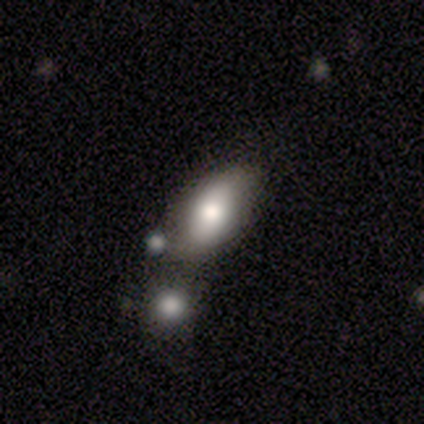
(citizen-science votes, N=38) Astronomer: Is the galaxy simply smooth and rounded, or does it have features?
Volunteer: smooth — 58% (runner-up: featured or disk, 42%).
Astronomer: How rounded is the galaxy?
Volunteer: in between — 91%.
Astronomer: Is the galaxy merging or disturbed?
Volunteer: merger — 39% (runner-up: none, 34%).